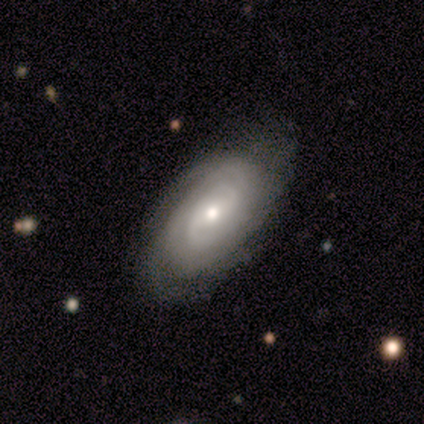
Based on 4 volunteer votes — smooth-or-featured: featured or disk: 100% | smooth: 0% | star or artifact: 0%
  disk-edge-on: no: 75% | yes: 25%
    bar: no: 67% | weak: 33% | strong: 0%
    has-spiral-arms: yes: 100% | no: 0%
      spiral-winding: medium: 67% | tight: 33% | loose: 0%
      spiral-arm-count: 2: 67% | can't tell: 33% | 1: 0% | 3: 0% | 4: 0% | more than 4: 0%
    bulge-size: moderate: 67% | small: 33% | dominant: 0% | large: 0% | none: 0%
  merging: none: 100% | minor disturbance: 0% | major disturbance: 0% | merger: 0%